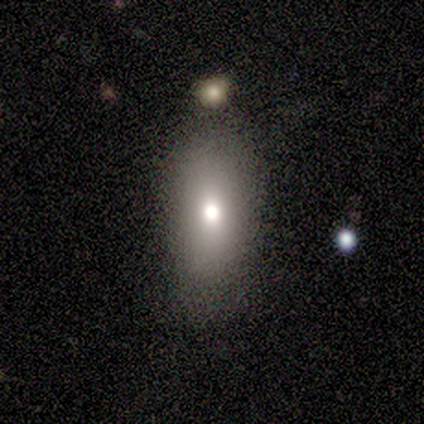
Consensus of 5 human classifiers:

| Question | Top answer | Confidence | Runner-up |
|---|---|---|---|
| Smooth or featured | smooth | 80% | star or artifact (20%) |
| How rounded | in between | 100% | — |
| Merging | minor disturbance | 50% | none (25%) |